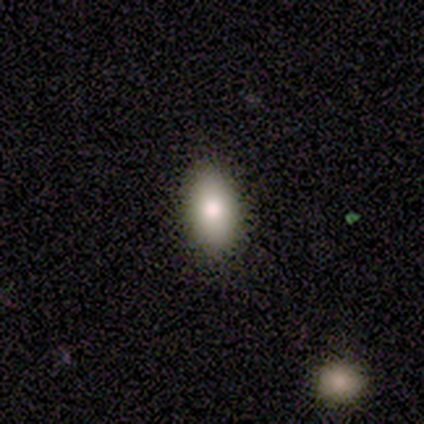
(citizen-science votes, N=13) This is likely a smooth galaxy (69%). How rounded: clearly in between (100%). Merging: clearly none (92%).